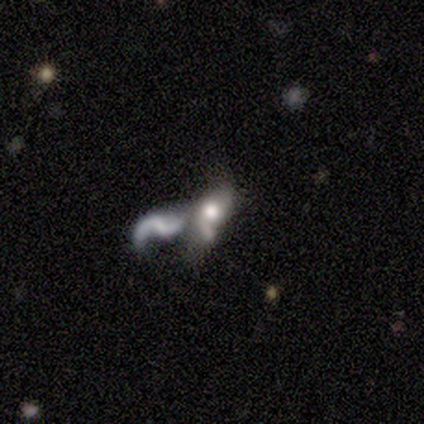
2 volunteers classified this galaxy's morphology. This appears to be a featured or disk galaxy (100%) with a strong bar (50%, tied with no), 2 (100%) loose (100%) spiral arms (100%) and a moderate central bulge (50%, tied with none). Merging: none (50%, tied with merger).